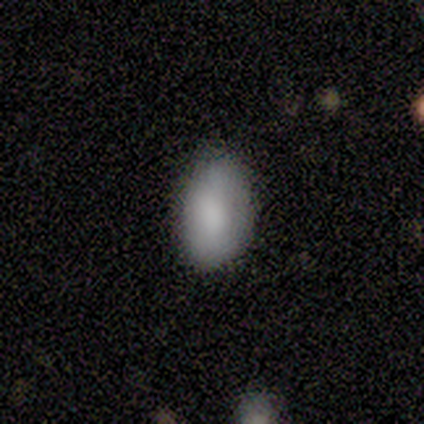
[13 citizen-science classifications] A smooth galaxy with no disk features (77%) that is in between round and cigar-shaped (90%). Merging: none (62%).